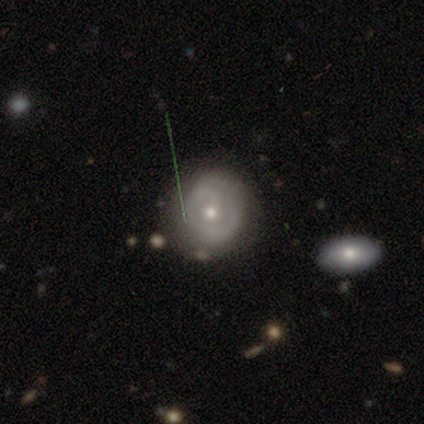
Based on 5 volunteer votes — Smooth or featured? featured or disk (60%)
Edge-on disk? no (100%)
Bar? no (67%)
Spiral arms? no (67%)
Bulge size? moderate (67%)
Merging? none (80%)